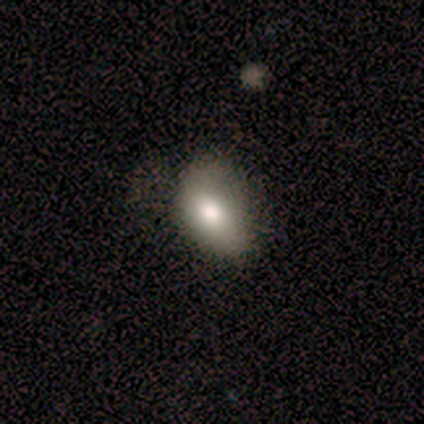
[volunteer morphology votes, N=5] smooth 80%, featured or disk 20%, star or artifact 0%. Down the decision tree: how rounded — in between (100%); merging — none (60%).